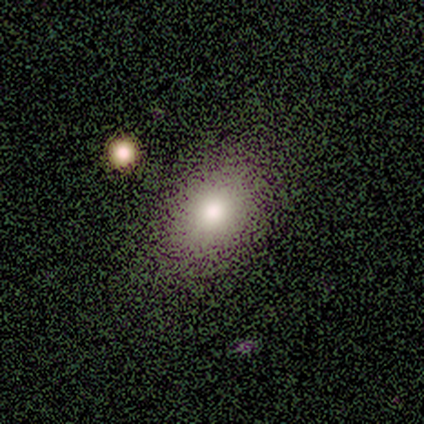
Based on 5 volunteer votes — Q: Smooth or featured?
A: smooth (60%); runner-up: featured or disk (20%)
Q: How rounded?
A: in between (100%)
Q: Merging?
A: none (100%)